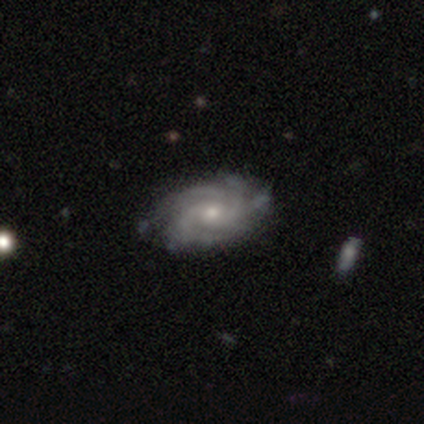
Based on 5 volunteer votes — A featured or disk galaxy (100%) with no bar (100%), 3 (40%) tight (80%) spiral arms (100%) and a small central bulge (80%).

Vote fractions:
- Smooth or featured? featured or disk: 100% / smooth: 0% / star or artifact: 0%
- Edge-on disk? no: 100% / yes: 0%
- Bar? no: 100% / strong: 0% / weak: 0%
- Spiral arms? yes: 100% / no: 0%
- Spiral winding? tight: 80% / medium: 20% / loose: 0%
- Spiral arm count? 3: 40% / 4: 20% / more than 4: 20% / can't tell: 20% / 1: 0% / 2: 0%
- Bulge size? small: 80% / moderate: 20% / dominant: 0% / large: 0% / none: 0%
- Merging? none: 100% / minor disturbance: 0% / major disturbance: 0% / merger: 0%